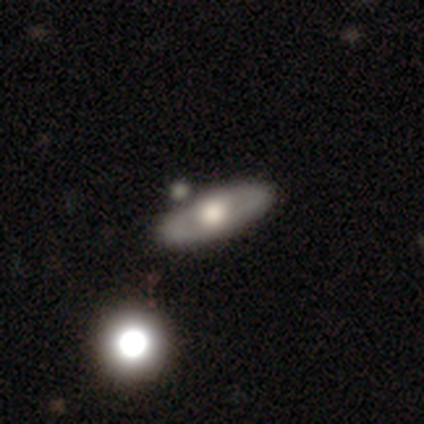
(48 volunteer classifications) This is possibly a featured or disk galaxy (54%). It is possibly viewed edge-on (58%). Edge-on bulge: clearly rounded (100%). Merging: likely none (79%).